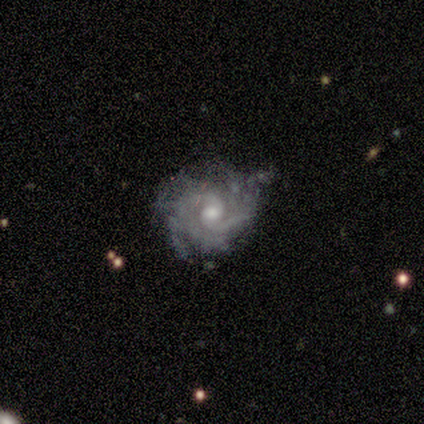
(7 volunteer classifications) Volunteers were most divided on "bar" (2-way tie): weak: 50%, no: 50%, strong: 0%; "merging" (2-way tie): none: 40%, minor disturbance: 40%, merger: 20%, major disturbance: 0%. More confident: edge-on disk — no (100%); spiral arms — yes (100%); spiral winding — medium (75%); bulge size — moderate (75%); smooth or featured — featured or disk (57%); spiral arm count — can't tell (50%).